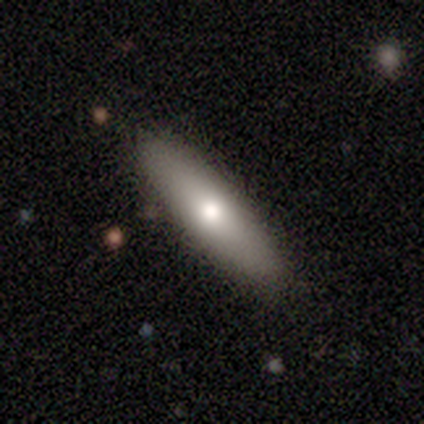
Smooth or featured? 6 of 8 (75%) said smooth. How rounded? 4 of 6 (67%) said cigar-shaped. Merging? 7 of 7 (100%) said none.